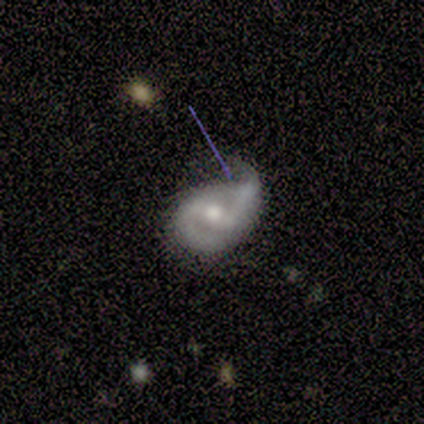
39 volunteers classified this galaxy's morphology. Smooth or featured: featured or disk — 92% (smooth — 8%)
Edge-on disk: no — 100%
Bar: weak — 58% (no — 25%)
Spiral arms: yes — 89% (no — 11%)
Spiral winding: medium — 62% (tight — 28%)
Spiral arm count: 2 — 94% (can't tell — 6%)
Bulge size: moderate — 56% (small — 25%)
Merging: minor disturbance — 49% (major disturbance — 28%)